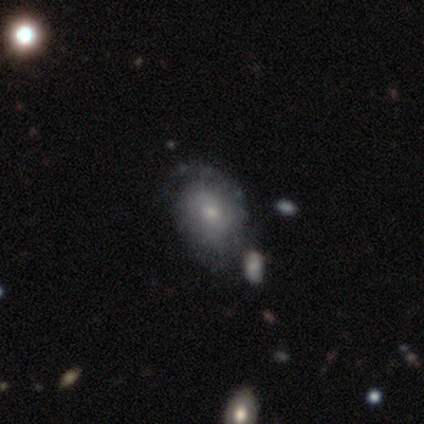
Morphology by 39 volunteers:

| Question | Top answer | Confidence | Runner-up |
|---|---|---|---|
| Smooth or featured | featured or disk | 72% | smooth (28%) |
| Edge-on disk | no | 96% | yes (4%) |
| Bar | no | 78% | weak (22%) |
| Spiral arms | yes | 89% | no (11%) |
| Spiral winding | tight | 58% | medium (33%) |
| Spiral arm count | can't tell | 58% | 2 (25%) |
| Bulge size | moderate | 52% | small (41%) |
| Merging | none | 46% | minor disturbance (23%) |